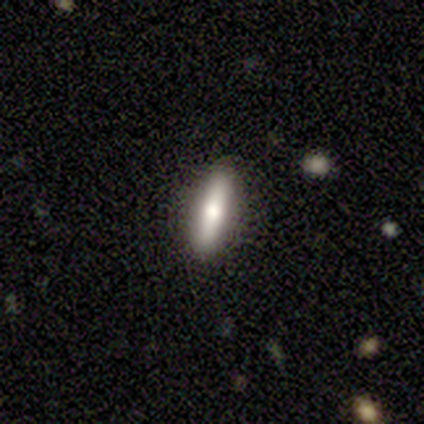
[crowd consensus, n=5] A smooth galaxy with no disk features (60%) that is cigar-shaped (67%). Merging: none (100%).